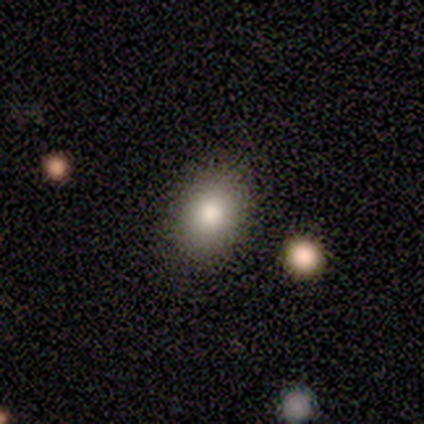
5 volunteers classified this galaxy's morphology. smooth_or_featured: smooth (p=1.00)
how_rounded: in between (p=0.80) [alt: round p=0.20]
merging: none (p=0.80) [alt: minor disturbance p=0.20]